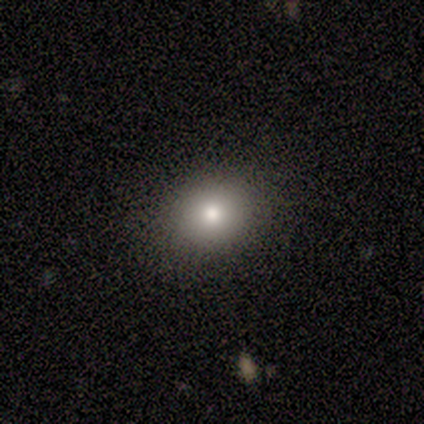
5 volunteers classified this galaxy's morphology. smooth_or_featured: smooth (p=1.00)
how_rounded: in between (p=0.80) [alt: round p=0.20]
merging: none (p=0.80) [alt: minor disturbance p=0.20]